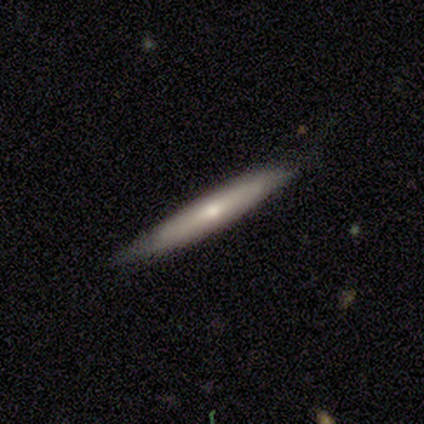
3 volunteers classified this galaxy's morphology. This appears to be a featured or disk galaxy (100%) viewed edge-on (67%) with a rounded central bulge (100%). Merging: none (33%, tied with minor disturbance and major disturbance).